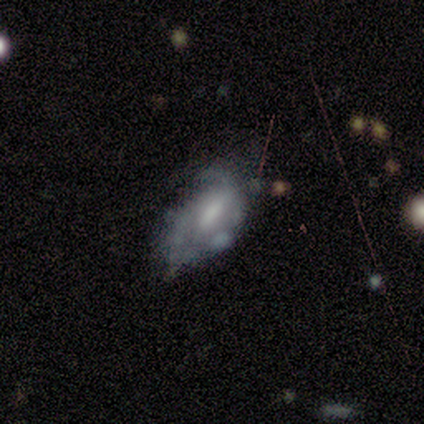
Overall: featured or disk (71%). Edge-on disk: no (97%). Bar: weak (50%; strong 25%). Spiral arms: no (54%; yes 46%). Bulge size: moderate (43%; none 29%). Merging: none (40%; minor disturbance 34%).